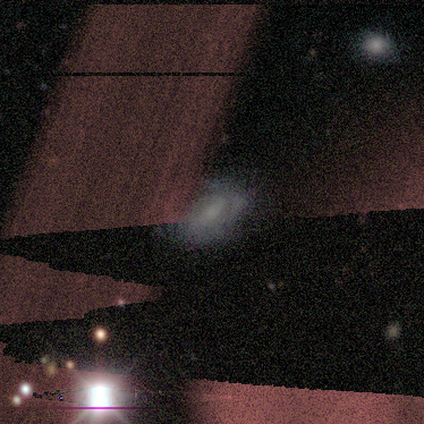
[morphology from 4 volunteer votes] Overall: smooth (50%, tied with featured or disk). How rounded: in between (100%). Merging: major disturbance (50%; none 25%).